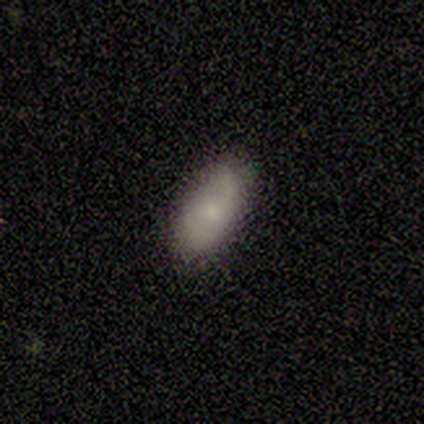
This appears to be a smooth galaxy with no disk features (78%) that is in between round and cigar-shaped (97%). Merging: none (82%).